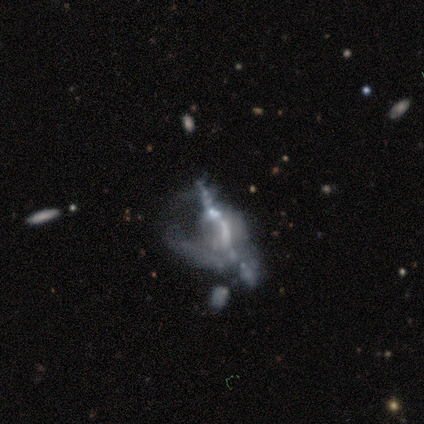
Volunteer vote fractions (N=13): Smooth or featured?
  - featured or disk: 69% *
  - smooth: 15%
  - star or artifact: 15%
Edge-on disk?
  - no: 56% *
  - yes: 44%
Bar?
  - no: 80% *
  - weak: 20%
  - strong: 0%
Spiral arms?
  - no: 60% *
  - yes: 40%
Bulge size?
  - none: 60% *
  - moderate: 20%
  - small: 20%
  - dominant: 0%
  - large: 0%
Merging?
  - major disturbance: 36% * (tied)
  - merger: 36% * (tied)
  - none: 27%
  - minor disturbance: 0%